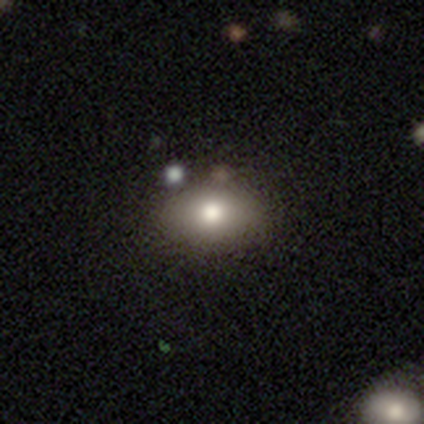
Smooth or featured? smooth (71%)
How rounded? in between (100%)
Merging? none (60%)